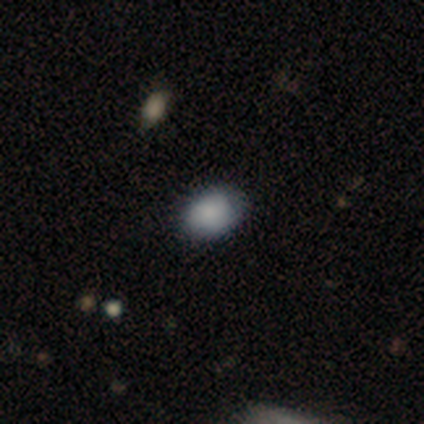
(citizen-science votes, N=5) Morphology: type=smooth (100%); roundness=in between (80%); merging=none (100%).